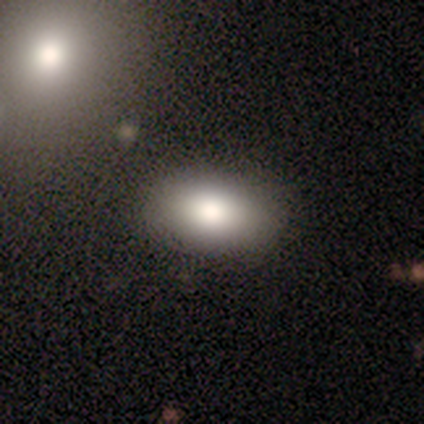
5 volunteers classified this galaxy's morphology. type=smooth (100%); roundness=in between (100%); merging=none (100%).